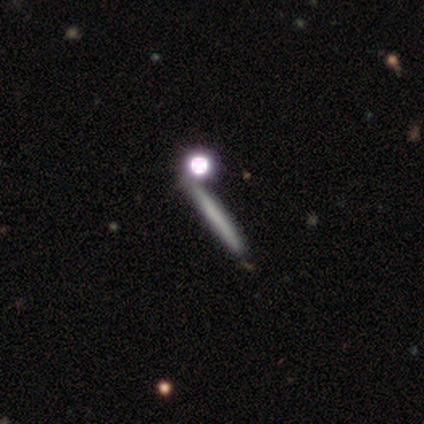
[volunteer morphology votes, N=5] Smooth or featured: smooth — 80% (featured or disk — 20%)
How rounded: cigar-shaped — 75% (round — 25%)
Merging: none — 40% (tied with merger — 40%)